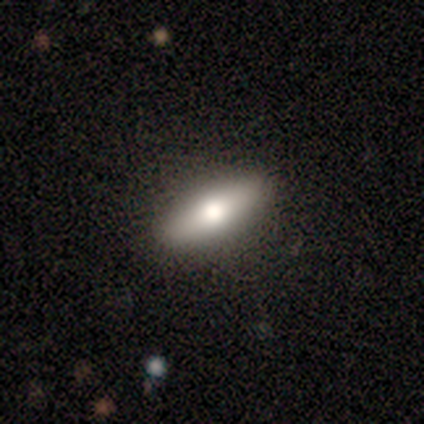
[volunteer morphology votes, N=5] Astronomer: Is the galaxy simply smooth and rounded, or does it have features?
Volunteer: smooth — 80%.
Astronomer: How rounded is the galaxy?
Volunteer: in between — 100%.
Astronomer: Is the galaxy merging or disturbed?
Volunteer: none — 80%.